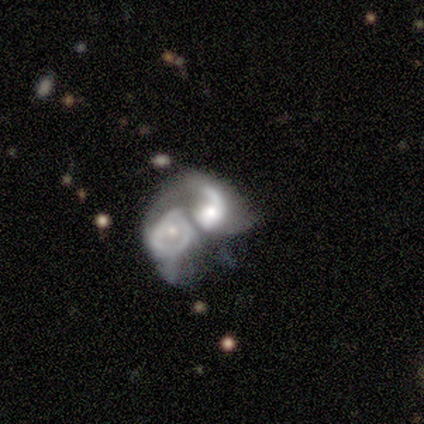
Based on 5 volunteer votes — Q: Smooth or featured?
A: featured or disk (80%); runner-up: smooth (20%)
Q: Edge-on disk?
A: no (100%)
Q: Bar?
A: no (75%); runner-up: weak (25%)
Q: Spiral arms?
A: yes (75%); runner-up: no (25%)
Q: Spiral winding?
A: medium (67%); runner-up: tight (33%)
Q: Spiral arm count?
A: 2 (67%); runner-up: can't tell (33%)
Q: Bulge size?
A: moderate (75%); runner-up: small (25%)
Q: Merging?
A: merger (100%)